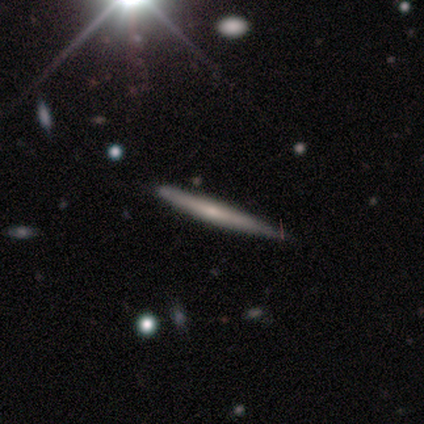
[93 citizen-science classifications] Volunteers were most divided on "edge-on bulge" (2-way tie): none: 49%, rounded: 49%, boxy: 2%. Remaining: edge-on disk — yes (93%); merging — none (78%); smooth or featured — featured or disk (49%).